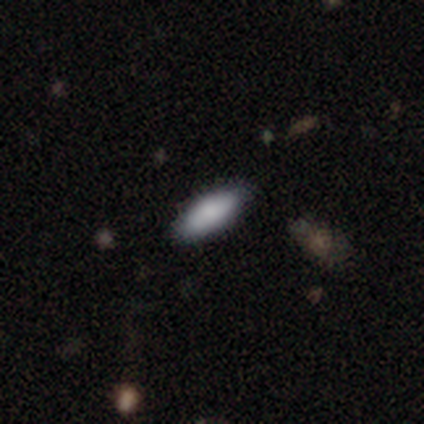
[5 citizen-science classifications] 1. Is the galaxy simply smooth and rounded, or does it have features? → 100% smooth, 0% featured or disk, 0% star or artifact.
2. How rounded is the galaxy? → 80% in between, 20% cigar-shaped, 0% round.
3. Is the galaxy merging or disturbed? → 80% none, 20% merger, 0% minor disturbance, 0% major disturbance.